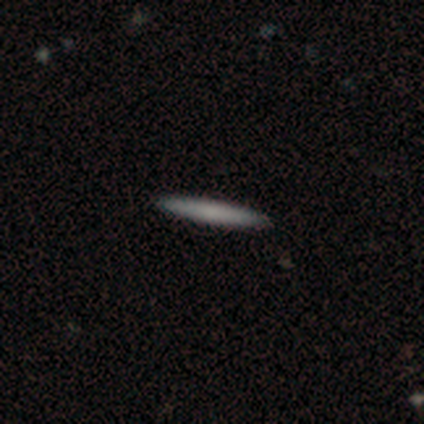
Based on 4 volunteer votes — Smooth or featured? 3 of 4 (75%) said smooth. How rounded? 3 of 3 (100%) said cigar-shaped. Merging? 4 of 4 (100%) said none.